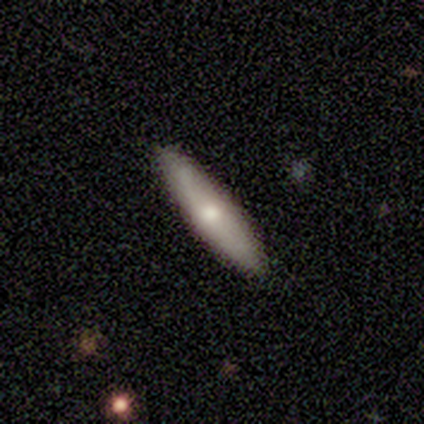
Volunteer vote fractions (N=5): This is likely a featured or disk galaxy (60%). It is clearly viewed edge-on (100%). Edge-on bulge: likely rounded (67%). Merging: clearly none (100%).